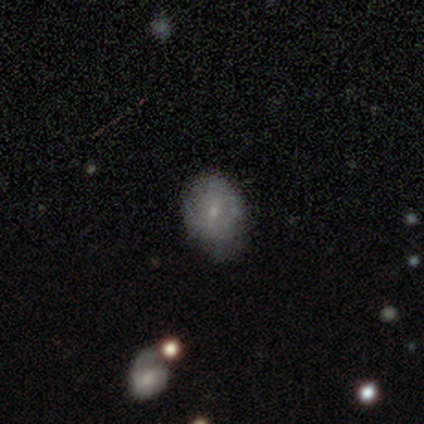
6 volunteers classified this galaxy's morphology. Smooth or featured? smooth (50%)
How rounded? in between (100%)
Merging? none (60%)